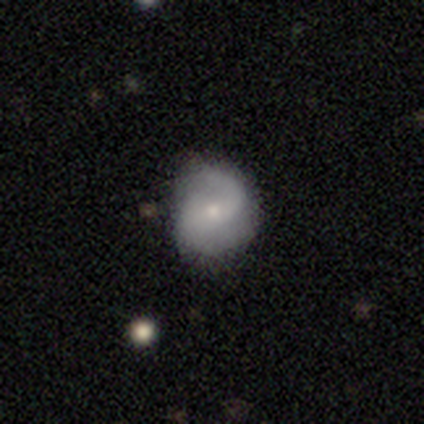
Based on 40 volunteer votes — Smooth or featured?
  - featured or disk: 65% *
  - smooth: 30%
  - star or artifact: 5%
Edge-on disk?
  - no: 92% *
  - yes: 8%
Bar?
  - weak: 50% *
  - no: 42%
  - strong: 8%
Spiral arms?
  - yes: 96% *
  - no: 4%
Spiral winding?
  - loose: 61% *
  - medium: 30%
  - tight: 9%
Spiral arm count?
  - 2: 74% *
  - 1: 22%
  - can't tell: 4%
  - 3: 0%
  - 4: 0%
  - more than 4: 0%
Bulge size?
  - small: 67% *
  - moderate: 29%
  - none: 4%
  - dominant: 0%
  - large: 0%
Merging?
  - none: 63% *
  - minor disturbance: 37%
  - major disturbance: 0%
  - merger: 0%